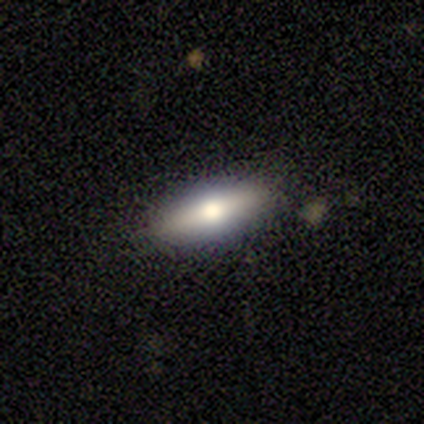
smooth 50%, featured or disk 25%, star or artifact 25%. Down the decision tree: how rounded — in between (50%, tied with cigar-shaped); merging — none (67%).